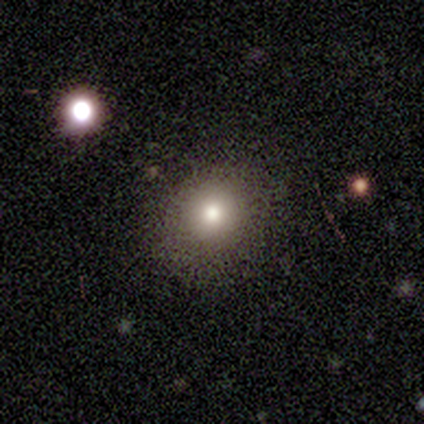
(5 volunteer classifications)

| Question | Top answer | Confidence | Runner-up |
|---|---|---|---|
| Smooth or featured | smooth | 100% | — |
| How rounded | round | 80% | in between (20%) |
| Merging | none | 60% | minor disturbance (40%) |